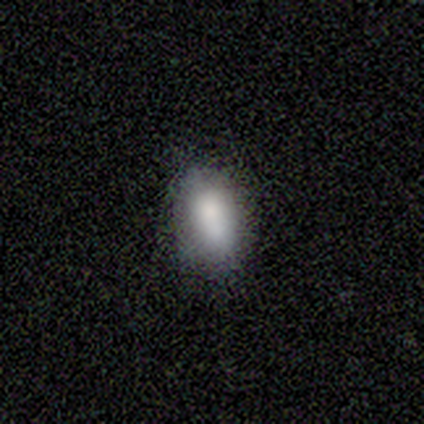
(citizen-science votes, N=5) Smooth or featured: smooth — 100%
How rounded: in between — 100%
Merging: none — 100%